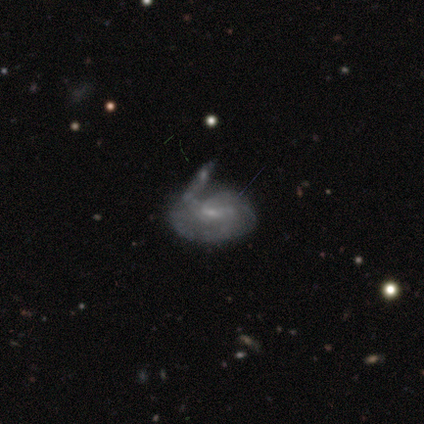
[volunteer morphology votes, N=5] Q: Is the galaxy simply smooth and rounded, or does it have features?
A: featured or disk — 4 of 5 (80%).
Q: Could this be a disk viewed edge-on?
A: no — 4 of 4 (100%).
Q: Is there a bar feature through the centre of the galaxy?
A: weak — 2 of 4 (50%, tied with no).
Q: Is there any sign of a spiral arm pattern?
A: yes — 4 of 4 (100%).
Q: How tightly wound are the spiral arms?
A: tight — 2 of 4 (50%, tied with medium).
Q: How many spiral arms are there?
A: can't tell — 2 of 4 (50%).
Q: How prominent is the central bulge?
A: small — 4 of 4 (100%).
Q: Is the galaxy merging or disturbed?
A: merger — 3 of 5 (60%).